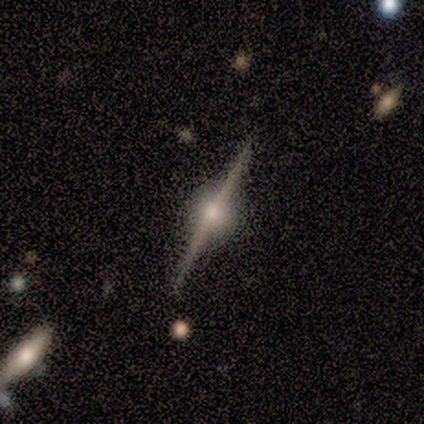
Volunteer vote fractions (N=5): smooth_or_featured: featured or disk (p=1.00)
disk_edge_on: yes (p=1.00)
edge_on_bulge: rounded (p=1.00)
merging: none (p=1.00)